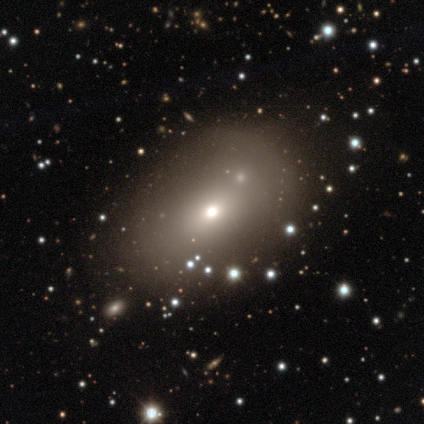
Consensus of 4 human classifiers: smooth_or_featured: smooth (p=1.00)
how_rounded: round (p=1.00)
merging: none (p=0.75) [alt: minor disturbance p=0.25]